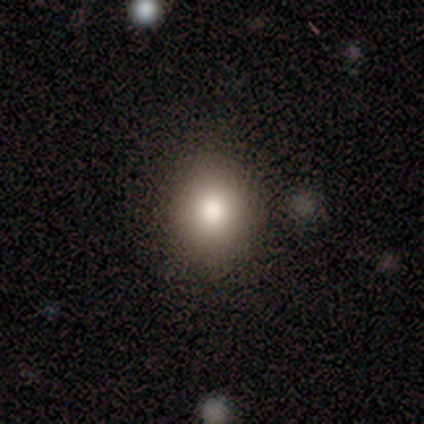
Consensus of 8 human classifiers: smooth_or_featured: smooth (p=0.50) [alt: featured or disk p=0.25]
how_rounded: round (p=1.00)
merging: none (p=1.00)